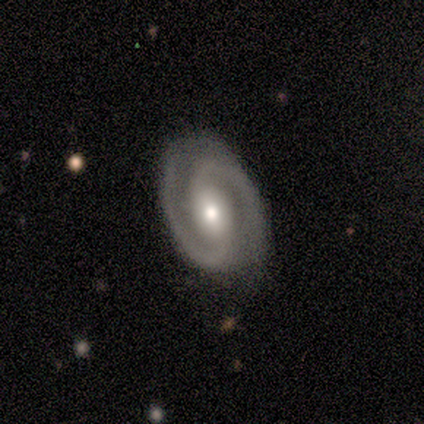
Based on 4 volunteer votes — Overall: featured or disk (100%). Edge-on disk: no (100%). Bar: no (50%; strong 25%). Spiral arms: yes (100%). Spiral arm count: 2 (100%). Spiral winding: medium (75%). Bulge size: small (75%). Merging: none (100%).